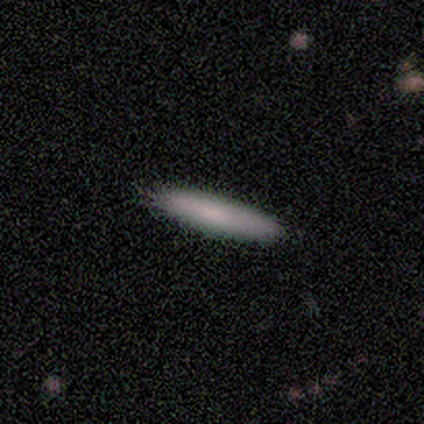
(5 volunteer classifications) A smooth galaxy with no disk features (80%) that is cigar-shaped (100%).

Vote fractions:
- Smooth or featured? smooth: 80% / featured or disk: 20% / star or artifact: 0%
- How rounded? cigar-shaped: 100% / round: 0% / in between: 0%
- Merging? none: 80% / minor disturbance: 20% / major disturbance: 0% / merger: 0%